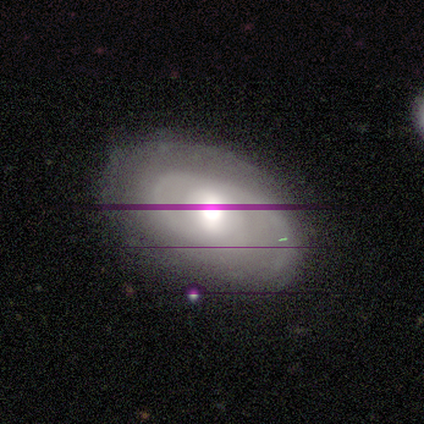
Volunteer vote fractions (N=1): Smooth or featured?
  - smooth: 100% *
  - featured or disk: 0%
  - star or artifact: 0%
How rounded?
  - in between: 100% *
  - round: 0%
  - cigar-shaped: 0%
Merging?
  - none: 100% *
  - minor disturbance: 0%
  - major disturbance: 0%
  - merger: 0%